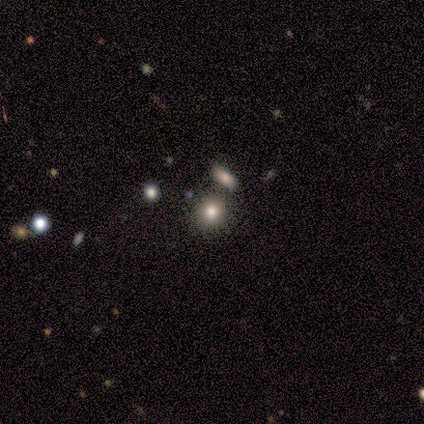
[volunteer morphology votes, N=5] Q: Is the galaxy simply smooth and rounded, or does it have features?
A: smooth — 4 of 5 (80%).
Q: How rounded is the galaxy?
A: round — 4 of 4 (100%).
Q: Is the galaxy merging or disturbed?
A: none — 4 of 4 (100%).